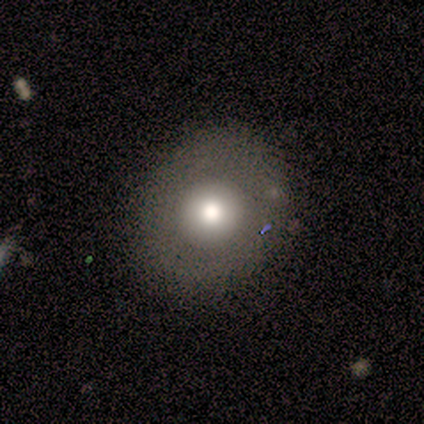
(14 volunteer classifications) Overall: smooth (57%; featured or disk 43%). How rounded: round (100%). Merging: none (86%).